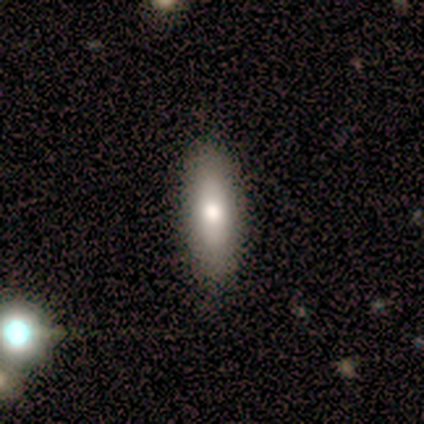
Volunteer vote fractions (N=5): smooth_or_featured: smooth (p=1.00)
how_rounded: cigar-shaped (p=0.60) [alt: in between p=0.40]
merging: none (p=1.00)